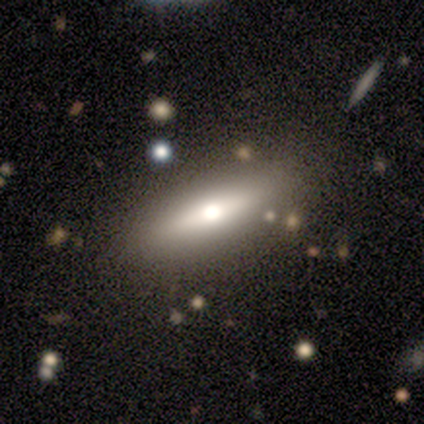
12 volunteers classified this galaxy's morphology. A smooth galaxy with no disk features (50%) that is in between round and cigar-shaped (50%, tied with cigar-shaped).

Vote fractions:
- Smooth or featured? smooth: 50% / featured or disk: 42% / star or artifact: 8%
- How rounded? in between: 50% (tied) / cigar-shaped: 50% (tied) / round: 0%
- Merging? none: 82% / minor disturbance: 18% / major disturbance: 0% / merger: 0%